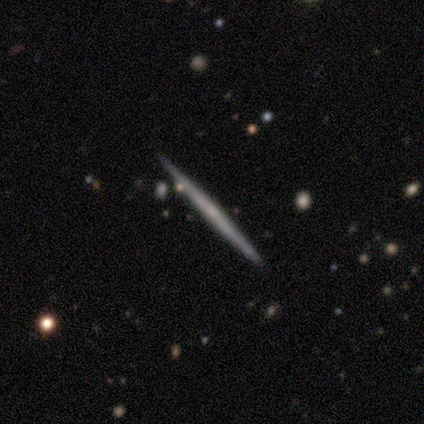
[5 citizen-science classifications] featured or disk 60%, smooth 40%, star or artifact 0%. Down the decision tree: edge-on disk — yes (100%); edge-on bulge — none (100%); merging — none (100%).